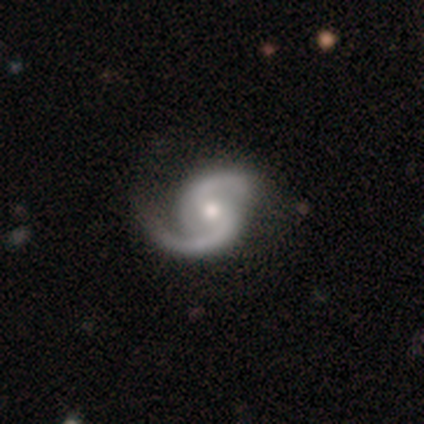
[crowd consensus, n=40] Smooth or featured?
  - featured or disk: 95% *
  - smooth: 2%
  - star or artifact: 2%
Edge-on disk?
  - no: 100% *
  - yes: 0%
Bar?
  - weak: 50% *
  - no: 37%
  - strong: 13%
Spiral arms?
  - yes: 100% *
  - no: 0%
Spiral winding?
  - medium: 50% *
  - loose: 37%
  - tight: 13%
Spiral arm count?
  - 2: 100% *
  - 1: 0%
  - 3: 0%
  - 4: 0%
  - more than 4: 0%
  - can't tell: 0%
Bulge size?
  - moderate: 66% *
  - small: 26%
  - large: 8%
  - dominant: 0%
  - none: 0%
Merging?
  - none: 72% *
  - minor disturbance: 18%
  - major disturbance: 10%
  - merger: 0%